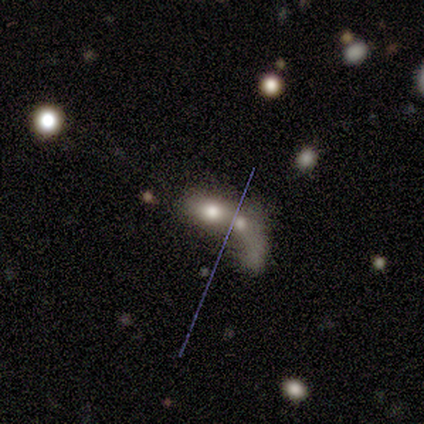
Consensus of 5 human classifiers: This is clearly a smooth galaxy (80%). How rounded: likely in between (75%). Merging: likely merger (60%).